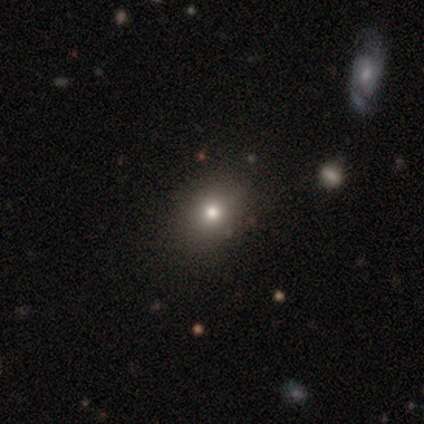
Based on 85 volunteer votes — Smooth or featured: smooth — 69% (star or artifact — 22%)
How rounded: round — 58% (in between — 41%)
Merging: none — 91% (minor disturbance — 8%)